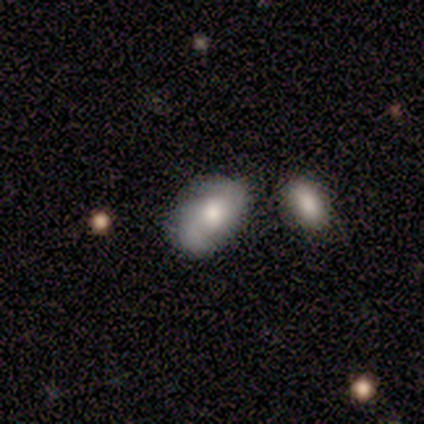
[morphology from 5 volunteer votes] This appears to be a smooth galaxy with no disk features (80%) that is in between round and cigar-shaped (75%). Merging: minor disturbance (60%).